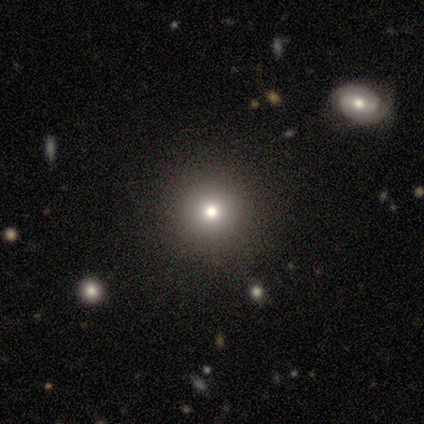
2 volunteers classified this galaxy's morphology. type=smooth (50%, tied with star or artifact); roundness=in between (100%); merging=none (100%).